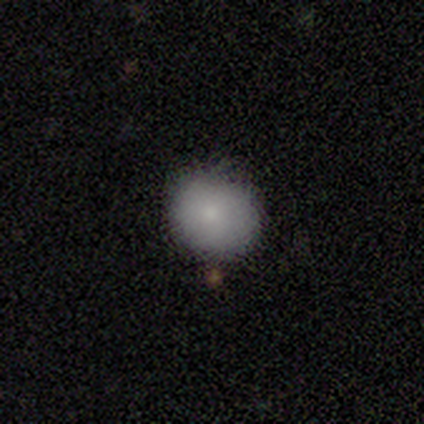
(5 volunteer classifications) Q: Smooth or featured?
A: smooth (80%); runner-up: featured or disk (20%)
Q: How rounded?
A: round (50%); tied with: in between (50%)
Q: Merging?
A: none (100%)